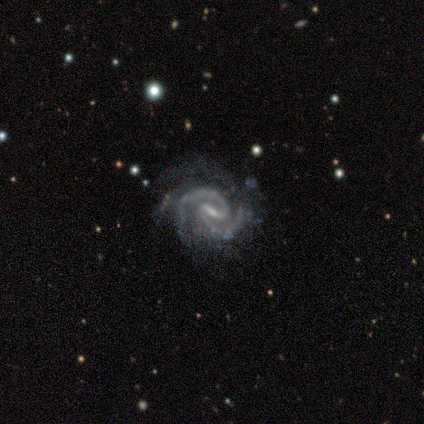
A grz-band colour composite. It shows a featured or disk galaxy (100%) with a weak bar (60%), 2 (60%) medium (80%) spiral arms (100%) and a small central bulge (100%). Merging: none (60%).